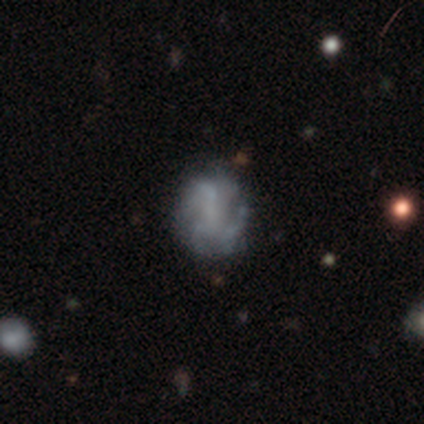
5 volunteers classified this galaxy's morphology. Q: Smooth or featured?
A: featured or disk (100%)
Q: Edge-on disk?
A: no (100%)
Q: Bar?
A: no (100%)
Q: Spiral arms?
A: yes (100%)
Q: Spiral winding?
A: medium (80%); runner-up: tight (20%)
Q: Spiral arm count?
A: 3 (60%); runner-up: can't tell (40%)
Q: Bulge size?
A: none (80%); runner-up: moderate (20%)
Q: Merging?
A: none (80%); runner-up: major disturbance (20%)